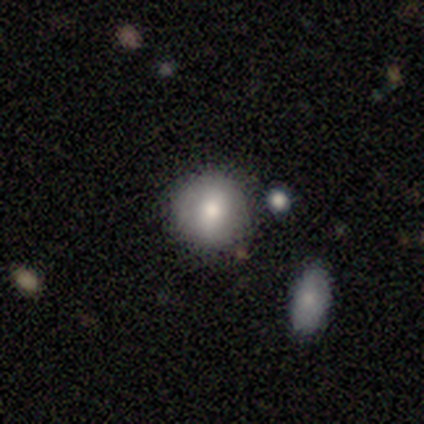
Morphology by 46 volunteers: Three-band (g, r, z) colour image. It shows a smooth galaxy with no disk features (63%) that is round (100%). Merging: none (81%).